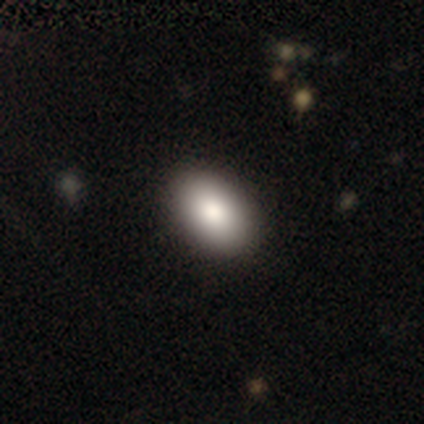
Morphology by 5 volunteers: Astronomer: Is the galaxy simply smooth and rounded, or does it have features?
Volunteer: smooth — 100%.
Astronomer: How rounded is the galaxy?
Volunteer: in between — 80%.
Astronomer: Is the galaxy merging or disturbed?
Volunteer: none — 80%.